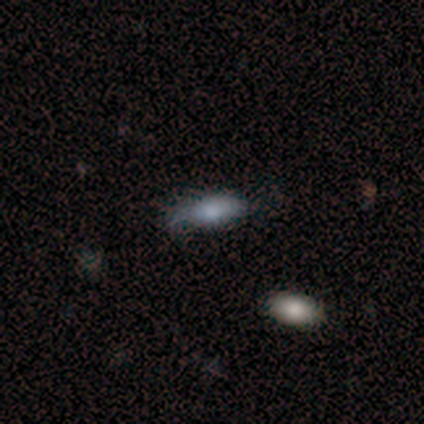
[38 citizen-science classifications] A smooth galaxy with no disk features (63%) that is in between round and cigar-shaped (79%).

Vote fractions:
- Smooth or featured? smooth: 63% / featured or disk: 21% / star or artifact: 16%
- How rounded? in between: 79% / cigar-shaped: 17% / round: 4%
- Merging? none: 47% / minor disturbance: 34% / major disturbance: 19% / merger: 0%